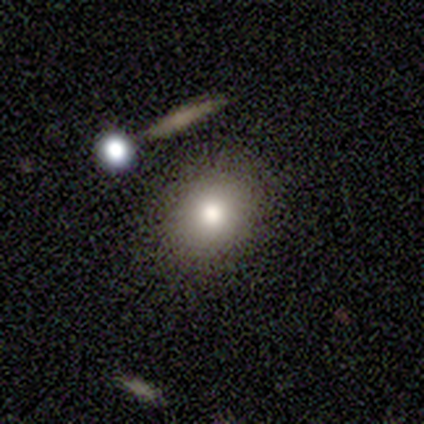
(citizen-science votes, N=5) Smooth or featured? 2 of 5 (40%, tied with star or artifact) said smooth. How rounded? 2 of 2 (100%) said round. Merging? 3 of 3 (100%) said none.